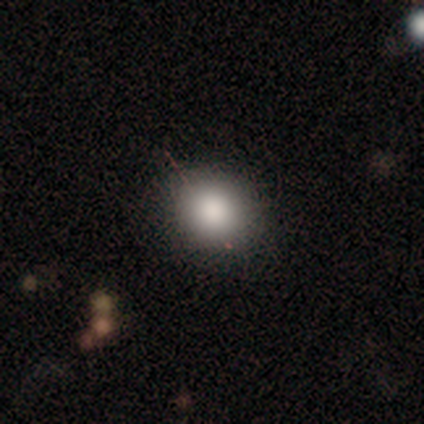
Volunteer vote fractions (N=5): Q: Smooth or featured?
A: smooth (60%); runner-up: featured or disk (20%)
Q: How rounded?
A: round (100%)
Q: Merging?
A: none (75%); runner-up: minor disturbance (25%)